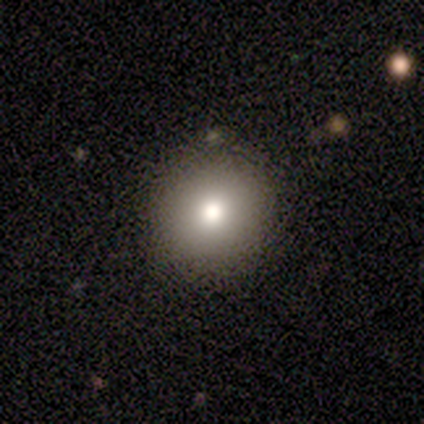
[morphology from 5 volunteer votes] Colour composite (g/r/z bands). It shows a smooth galaxy with no disk features (100%) that is round (100%). Merging: none (60%).